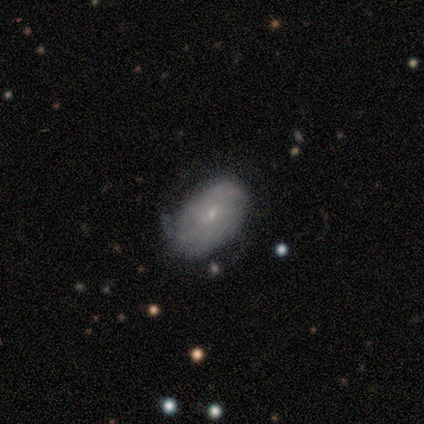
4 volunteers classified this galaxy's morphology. Smooth or featured: featured or disk — 75% (smooth — 25%)
Edge-on disk: no — 100%
Bar: no — 100%
Spiral arms: yes — 67% (no — 33%)
Spiral winding: tight — 50% (tied with medium — 50%)
Spiral arm count: 1 — 50% (tied with more than 4 — 50%)
Bulge size: small — 67% (moderate — 33%)
Merging: none — 75% (minor disturbance — 25%)